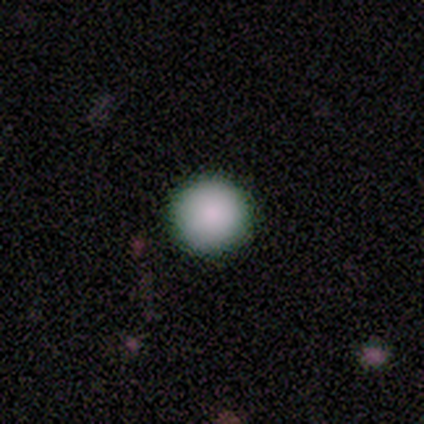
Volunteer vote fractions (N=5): smooth 100%, featured or disk 0%, star or artifact 0%. Down the decision tree: how rounded — round (100%); merging — none (100%).